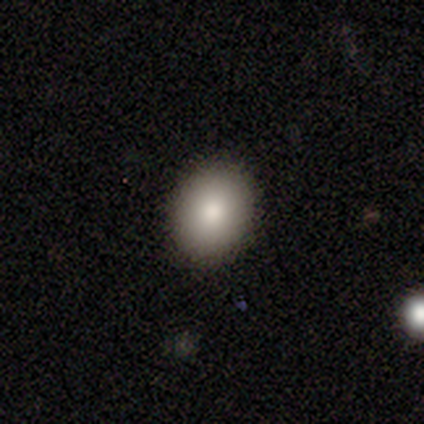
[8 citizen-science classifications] Volunteers were most divided on "how rounded": in between: 60%, round: 40%, cigar-shaped: 0%. More confident: merging — none (100%); smooth or featured — smooth (62%).